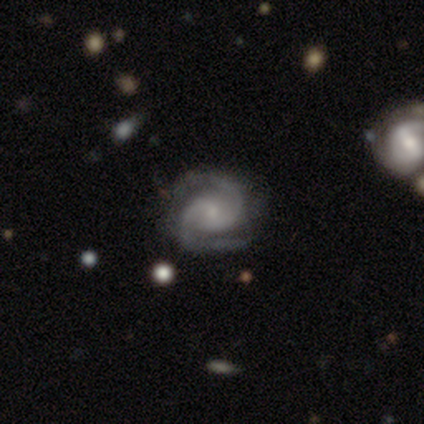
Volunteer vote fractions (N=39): Q: Smooth or featured?
A: featured or disk (92%); runner-up: star or artifact (8%)
Q: Edge-on disk?
A: no (100%)
Q: Bar?
A: no (64%); runner-up: weak (36%)
Q: Spiral arms?
A: yes (100%)
Q: Spiral winding?
A: tight (58%); runner-up: medium (42%)
Q: Spiral arm count?
A: 2 (97%); runner-up: 1 (3%)
Q: Bulge size?
A: small (86%); runner-up: moderate (8%)
Q: Merging?
A: none (83%); runner-up: minor disturbance (11%)